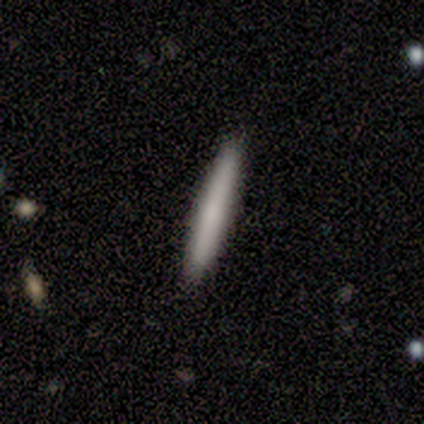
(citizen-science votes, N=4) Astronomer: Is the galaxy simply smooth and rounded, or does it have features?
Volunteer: smooth — 75%.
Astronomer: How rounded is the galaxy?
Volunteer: cigar-shaped — 100%.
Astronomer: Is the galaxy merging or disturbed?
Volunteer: none — 100%.